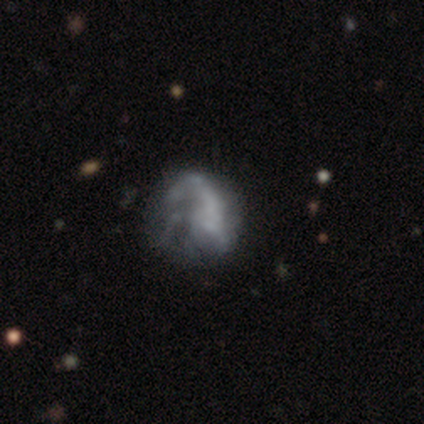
Smooth or featured? featured or disk (60%)
Edge-on disk? no (100%)
Bar? no (67%)
Spiral arms? yes (67%)
Spiral winding? medium (50%, tied with loose)
Spiral arm count? 1 (50%, tied with 2)
Bulge size? dominant (67%)
Merging? minor disturbance (75%)